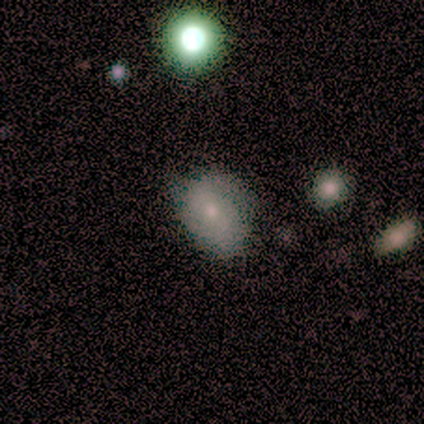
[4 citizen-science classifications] Smooth or featured?
  - smooth: 50% *
  - featured or disk: 25%
  - star or artifact: 25%
How rounded?
  - in between: 100% *
  - round: 0%
  - cigar-shaped: 0%
Merging?
  - none: 67% *
  - minor disturbance: 33%
  - major disturbance: 0%
  - merger: 0%